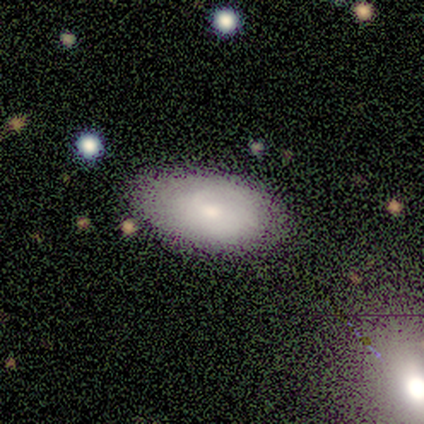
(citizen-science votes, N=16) Q: Smooth or featured?
A: smooth (56%); runner-up: featured or disk (38%)
Q: How rounded?
A: in between (100%)
Q: Merging?
A: none (80%); runner-up: minor disturbance (20%)